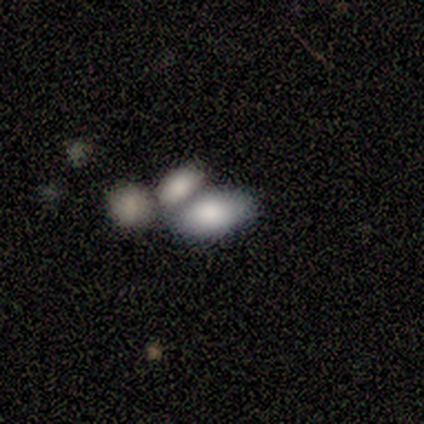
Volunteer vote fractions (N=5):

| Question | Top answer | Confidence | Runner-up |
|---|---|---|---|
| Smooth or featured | smooth | 60% | featured or disk (20%) |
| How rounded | in between | 100% | — |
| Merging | merger | 50% | minor disturbance (25%) |